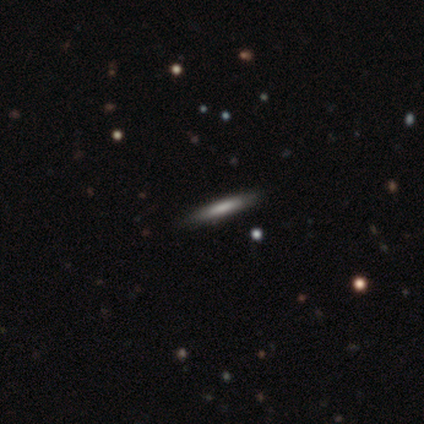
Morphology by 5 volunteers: smooth_or_featured: smooth (p=0.80) [alt: featured or disk p=0.20]
how_rounded: cigar-shaped (p=1.00)
merging: none (p=1.00)